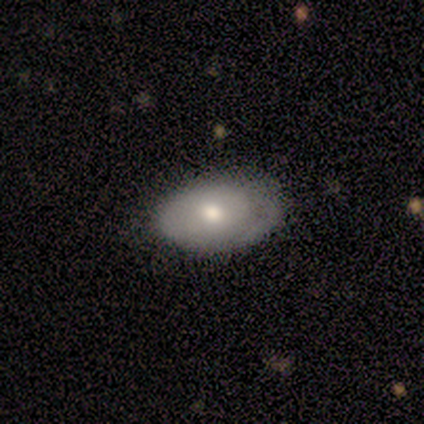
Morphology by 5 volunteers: A featured or disk galaxy (60%) with no bar (100%), no spiral arms (67%) and a moderate central bulge (100%). Merging: none (100%).